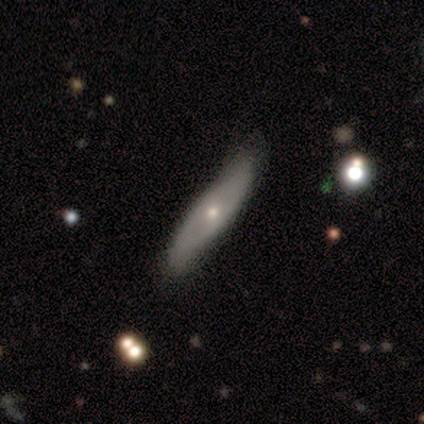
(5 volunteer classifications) A featured or disk galaxy (80%) viewed edge-on (75%) with a rounded central bulge (100%).

Vote fractions:
- Smooth or featured? featured or disk: 80% / smooth: 20% / star or artifact: 0%
- Edge-on disk? yes: 75% / no: 25%
- Edge-on bulge? rounded: 100% / boxy: 0% / none: 0%
- Merging? none: 80% / minor disturbance: 20% / major disturbance: 0% / merger: 0%